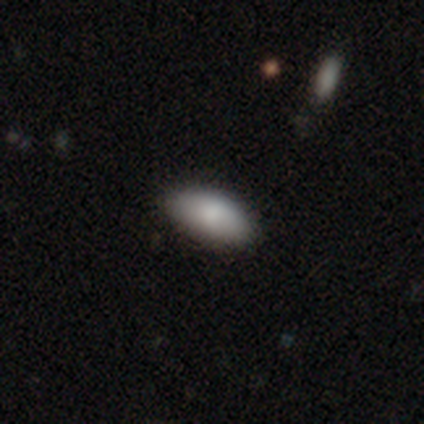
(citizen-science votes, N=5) This is clearly a smooth galaxy (100%). How rounded: clearly in between (100%). Merging: clearly none (100%).